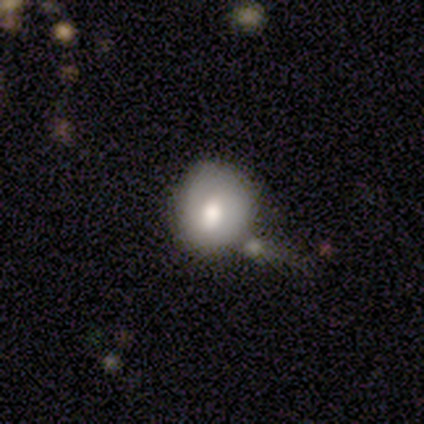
A smooth galaxy with no disk features (64%) that is round (96%).

Vote fractions:
- Smooth or featured? smooth: 64% / featured or disk: 26% / star or artifact: 10%
- How rounded? round: 96% / in between: 4% / cigar-shaped: 0%
- Merging? none: 43% / minor disturbance: 29% / major disturbance: 17% / merger: 11%